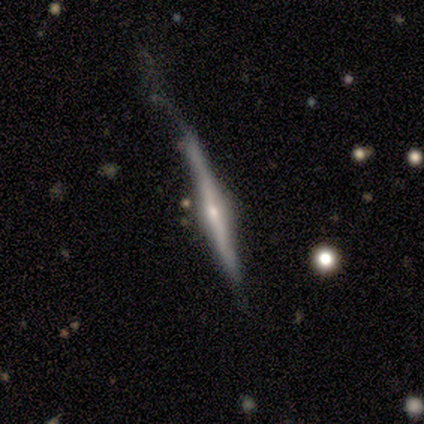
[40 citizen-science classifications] Smooth or featured?
  - featured or disk: 80% *
  - smooth: 20%
  - star or artifact: 0%
Edge-on disk?
  - yes: 100% *
  - no: 0%
Edge-on bulge?
  - rounded: 78% *
  - boxy: 16%
  - none: 6%
Merging?
  - none: 35% * (tied)
  - major disturbance: 35% * (tied)
  - minor disturbance: 30%
  - merger: 0%